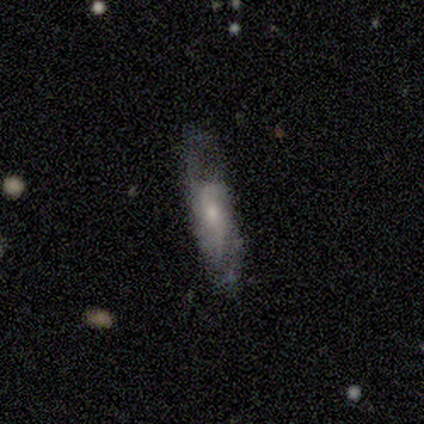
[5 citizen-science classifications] This is clearly a smooth galaxy (80%). How rounded: possibly in between (50%, tied with cigar-shaped). Merging: likely none (60%).